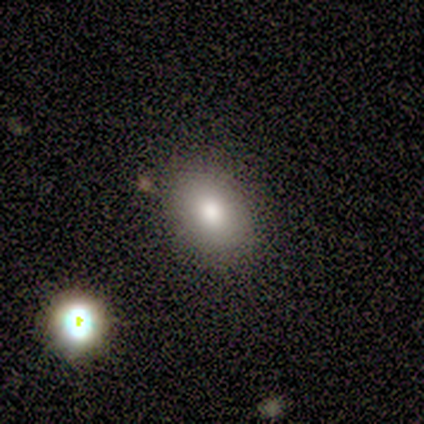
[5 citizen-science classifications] smooth-or-featured: smooth: 80% | featured or disk: 20% | star or artifact: 0%
  how-rounded: in between: 75% | round: 25% | cigar-shaped: 0%
  merging: none: 100% | minor disturbance: 0% | major disturbance: 0% | merger: 0%